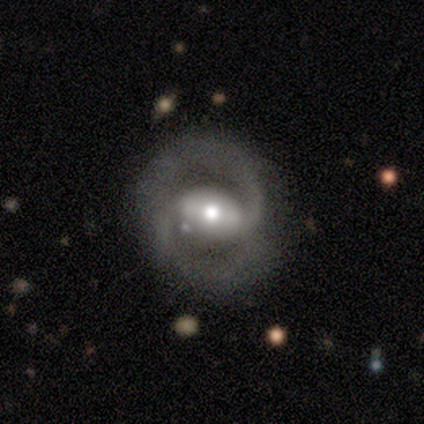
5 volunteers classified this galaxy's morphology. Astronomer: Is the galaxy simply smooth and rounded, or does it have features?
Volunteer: featured or disk — 80%.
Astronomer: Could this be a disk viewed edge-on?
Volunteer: no — 100%.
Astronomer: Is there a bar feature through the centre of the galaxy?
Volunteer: strong — 50%.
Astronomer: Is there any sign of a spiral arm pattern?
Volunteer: yes — 100%.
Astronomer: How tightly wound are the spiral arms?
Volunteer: medium — 50%.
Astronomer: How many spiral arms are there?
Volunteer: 2 — 100%.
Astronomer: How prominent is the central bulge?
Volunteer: moderate — 75%.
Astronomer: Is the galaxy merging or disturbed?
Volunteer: none — 80%.